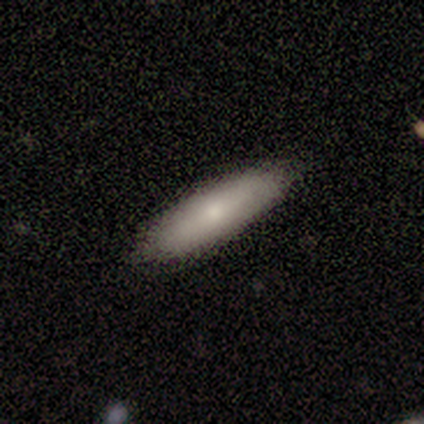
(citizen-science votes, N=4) Morphology: type=smooth (50%); roundness=cigar-shaped (100%); merging=none (100%).